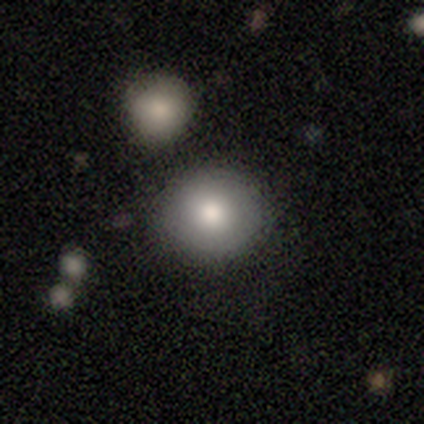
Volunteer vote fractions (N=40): Smooth or featured: smooth — 90% (featured or disk — 8%)
How rounded: round — 97% (in between — 3%)
Merging: none — 72% (merger — 13%)